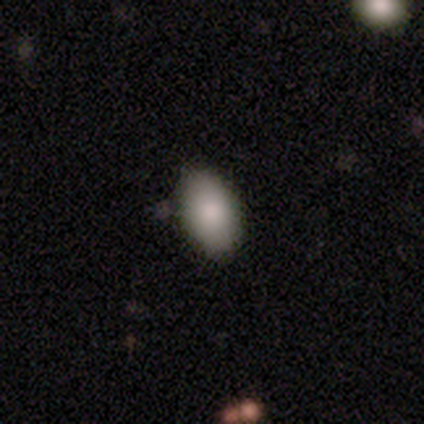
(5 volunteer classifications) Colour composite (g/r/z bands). It shows a smooth galaxy with no disk features (100%) that is in between round and cigar-shaped (100%). Merging: none (100%).